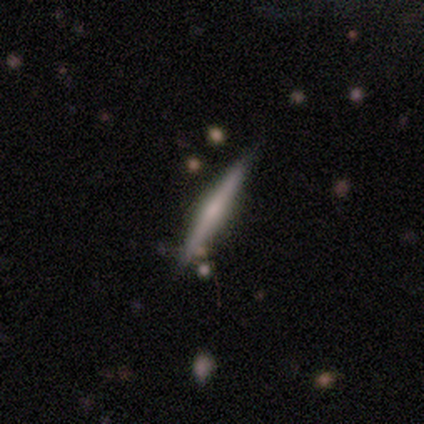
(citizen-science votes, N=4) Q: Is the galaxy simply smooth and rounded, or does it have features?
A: featured or disk — 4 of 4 (100%).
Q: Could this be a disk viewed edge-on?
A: yes — 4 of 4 (100%).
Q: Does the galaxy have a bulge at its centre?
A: none — 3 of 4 (75%).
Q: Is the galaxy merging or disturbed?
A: none — 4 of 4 (100%).